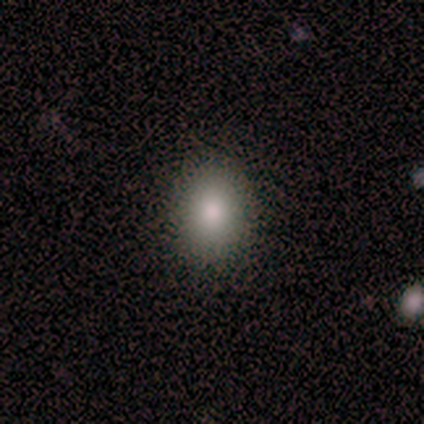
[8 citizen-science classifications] Smooth or featured?
  - smooth: 88% *
  - featured or disk: 12%
  - star or artifact: 0%
How rounded?
  - in between: 86% *
  - round: 14%
  - cigar-shaped: 0%
Merging?
  - none: 100% *
  - minor disturbance: 0%
  - major disturbance: 0%
  - merger: 0%